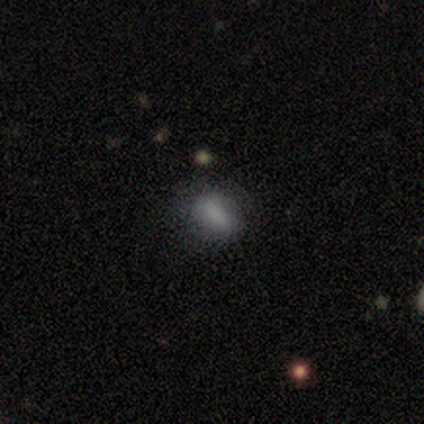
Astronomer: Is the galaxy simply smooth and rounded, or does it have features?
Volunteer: smooth — 83%.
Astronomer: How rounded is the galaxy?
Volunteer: in between — 60% (runner-up: round, 40%).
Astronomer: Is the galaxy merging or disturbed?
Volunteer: none — 100%.